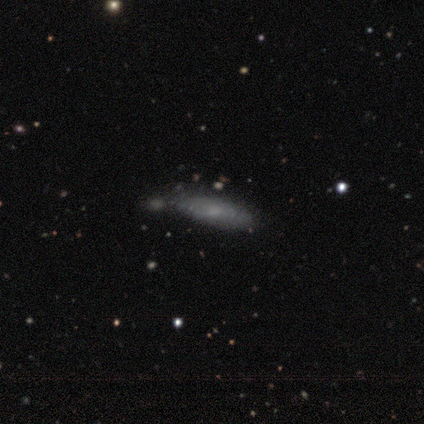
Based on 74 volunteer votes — Volunteers were most divided on "how rounded": cigar-shaped: 64%, in between: 36%, round: 0%. More confident: smooth or featured — smooth (61%); merging — none (56%).